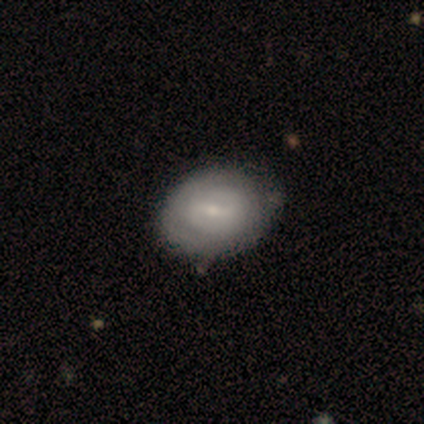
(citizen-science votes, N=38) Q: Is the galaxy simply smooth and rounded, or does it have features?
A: featured or disk — 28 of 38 (74%).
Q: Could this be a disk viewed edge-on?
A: no — 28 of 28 (100%).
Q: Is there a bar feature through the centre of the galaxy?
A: weak — 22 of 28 (79%).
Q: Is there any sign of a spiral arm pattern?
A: yes — 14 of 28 (50%, tied with no).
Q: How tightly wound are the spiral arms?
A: tight — 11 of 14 (79%).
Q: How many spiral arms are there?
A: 2 — 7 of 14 (50%).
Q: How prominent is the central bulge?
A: small — 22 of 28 (79%).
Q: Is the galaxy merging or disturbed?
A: none — 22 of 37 (59%).